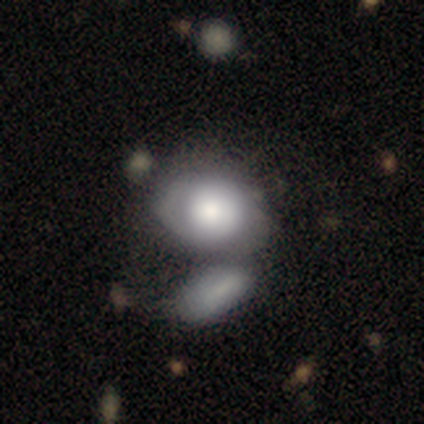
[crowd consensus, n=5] Q: Smooth or featured?
A: smooth (80%); runner-up: featured or disk (20%)
Q: How rounded?
A: in between (75%); runner-up: round (25%)
Q: Merging?
A: none (60%); runner-up: merger (40%)